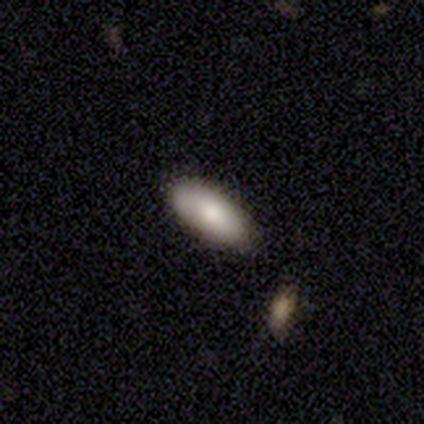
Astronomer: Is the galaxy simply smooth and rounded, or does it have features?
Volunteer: smooth — 75%.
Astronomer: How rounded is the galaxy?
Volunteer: in between — 89%.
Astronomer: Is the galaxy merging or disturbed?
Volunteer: none — 79%.